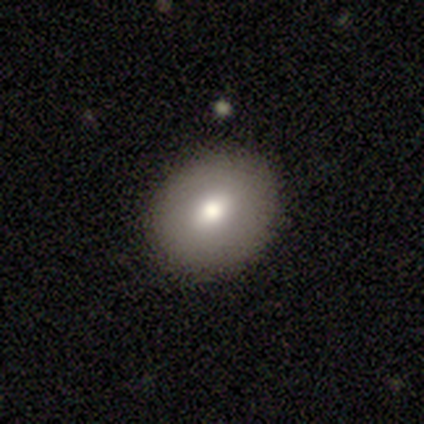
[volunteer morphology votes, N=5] Smooth or featured?
  - smooth: 80% *
  - featured or disk: 20%
  - star or artifact: 0%
How rounded?
  - in between: 75% *
  - round: 25%
  - cigar-shaped: 0%
Merging?
  - none: 100% *
  - minor disturbance: 0%
  - major disturbance: 0%
  - merger: 0%